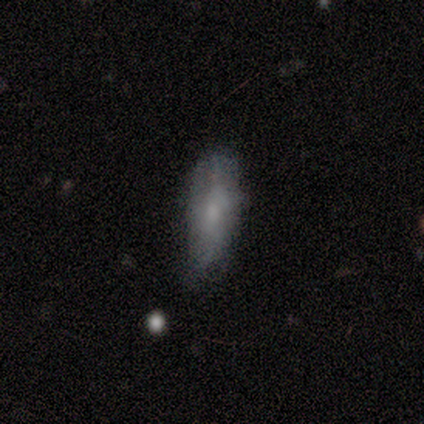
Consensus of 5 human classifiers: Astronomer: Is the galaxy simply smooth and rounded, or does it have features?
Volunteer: smooth — 60% (runner-up: featured or disk, 40%).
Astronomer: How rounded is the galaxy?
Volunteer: in between — 100%.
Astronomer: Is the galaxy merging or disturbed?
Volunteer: none — 80%.